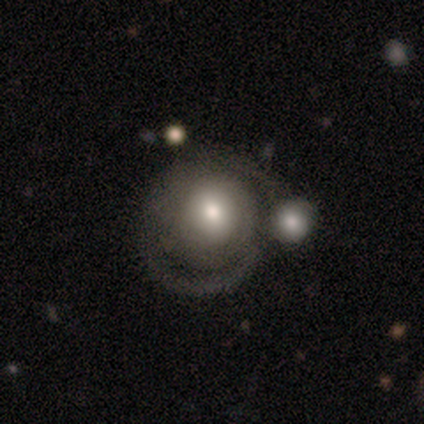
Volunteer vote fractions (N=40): Morphology: type=featured or disk (62%); edge-on=no (100%); bar=no (92%); spiral arms=yes (68%); winding=loose (47%); arm count=2 (35%, tied with can't tell); bulge=moderate (64%); merging=merger (39%).